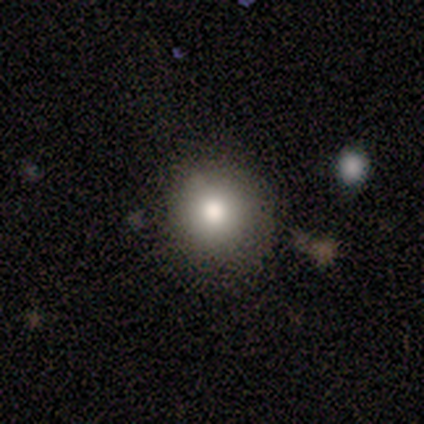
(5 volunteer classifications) Smooth or featured? 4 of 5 (80%) said smooth. How rounded? 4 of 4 (100%) said round. Merging? 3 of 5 (60%) said none.